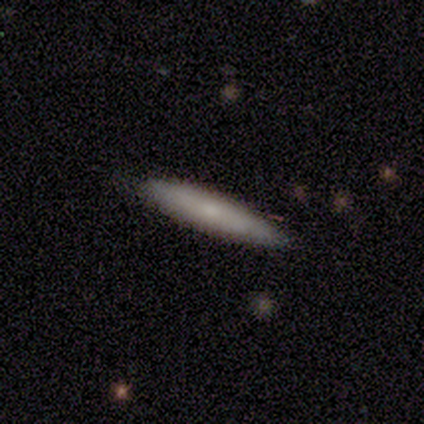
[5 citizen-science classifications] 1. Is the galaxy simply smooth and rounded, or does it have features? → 100% smooth, 0% featured or disk, 0% star or artifact.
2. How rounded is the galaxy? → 100% cigar-shaped, 0% round, 0% in between.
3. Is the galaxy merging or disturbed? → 100% none, 0% minor disturbance, 0% major disturbance, 0% merger.